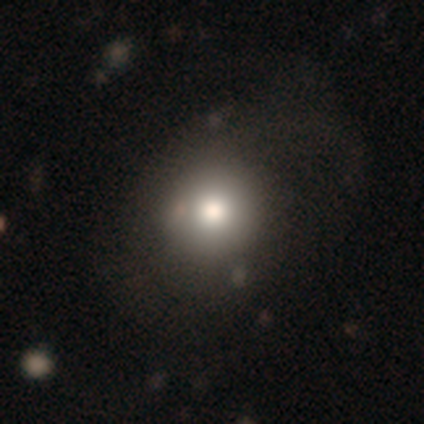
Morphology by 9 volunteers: smooth_or_featured: smooth (p=0.89) [alt: star or artifact p=0.11]
how_rounded: round (p=0.62) [alt: in between p=0.38]
merging: none (p=0.50) [alt: minor disturbance p=0.25]